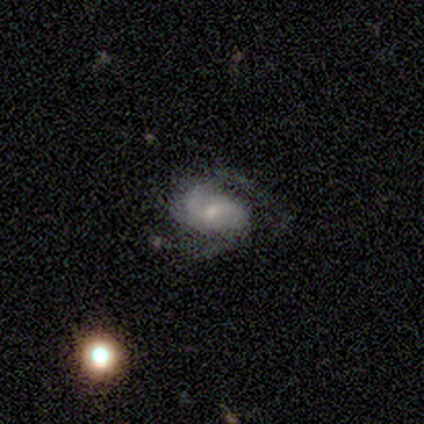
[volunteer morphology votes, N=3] smooth_or_featured: featured or disk (p=0.67) [alt: star or artifact p=0.33]
disk_edge_on: no (p=1.00)
bar: no (p=1.00)
has_spiral_arms: yes (p=1.00)
spiral_winding: medium (p=1.00)
spiral_arm_count: 2 (p=0.50) [tied with: can't tell p=0.50]
bulge_size: small (p=0.50) [tied with: none p=0.50]
merging: none (p=1.00)